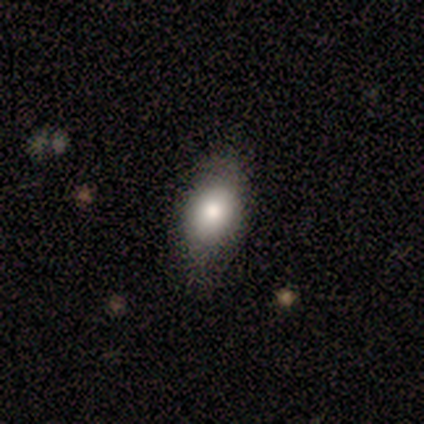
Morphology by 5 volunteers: smooth 100%, featured or disk 0%, star or artifact 0%. Down the decision tree: how rounded — in between (100%); merging — none (80%).